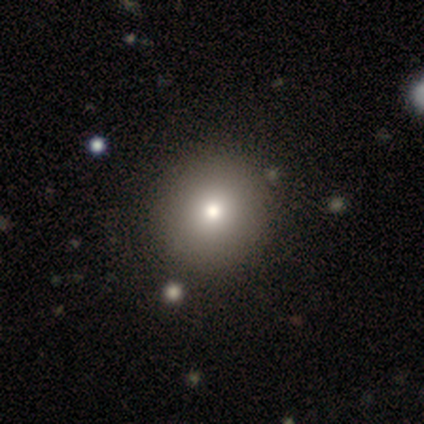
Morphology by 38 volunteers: This appears to be a smooth galaxy with no disk features (79%) that is round (97%). Merging: none (58%).